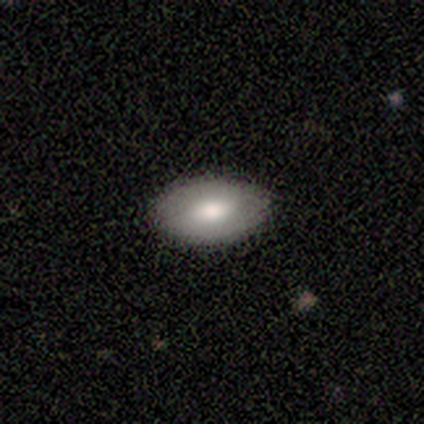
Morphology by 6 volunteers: A smooth galaxy with no disk features (83%) that is in between round and cigar-shaped (80%). Merging: none (67%).